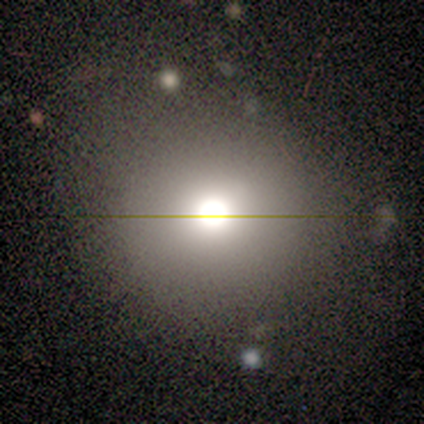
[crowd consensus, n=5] This is marginally a smooth galaxy (40%, tied with star or artifact). How rounded: clearly round (100%). Merging: clearly none (100%).